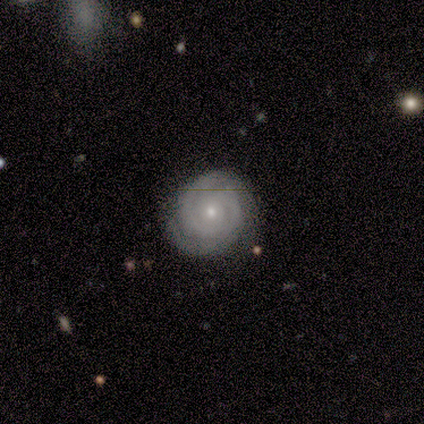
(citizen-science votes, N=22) smooth-or-featured: featured or disk: 91% | smooth: 5% | star or artifact: 5%
  disk-edge-on: no: 100% | yes: 0%
    bar: no: 90% | weak: 10% | strong: 0%
    has-spiral-arms: yes: 95% | no: 5%
      spiral-winding: tight: 100% | medium: 0% | loose: 0%
      spiral-arm-count: 2: 63% | can't tell: 21% | 3: 11% | 1: 5% | 4: 0% | more than 4: 0%
    bulge-size: small: 85% | moderate: 15% | dominant: 0% | large: 0% | none: 0%
  merging: none: 81% | minor disturbance: 14% | major disturbance: 5% | merger: 0%